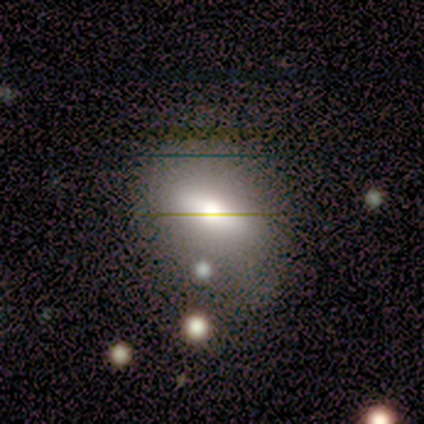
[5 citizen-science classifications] featured or disk 60%, smooth 40%, star or artifact 0%. Down the decision tree: edge-on disk — no (100%); bar — weak (67%); spiral arms — no (100%); bulge size — dominant (33%, tied with moderate and small); merging — none (60%).